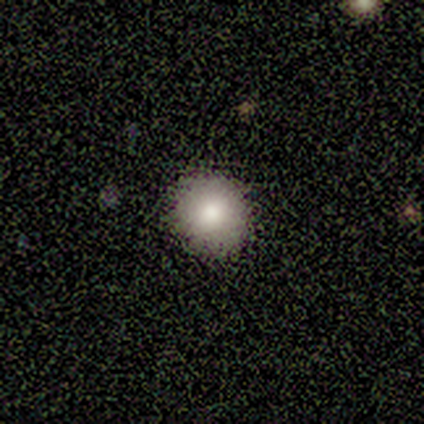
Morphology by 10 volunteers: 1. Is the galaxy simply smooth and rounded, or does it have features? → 70% smooth, 20% star or artifact, 10% featured or disk.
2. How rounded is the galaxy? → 100% round, 0% in between, 0% cigar-shaped.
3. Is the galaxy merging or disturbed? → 100% none, 0% minor disturbance, 0% major disturbance, 0% merger.